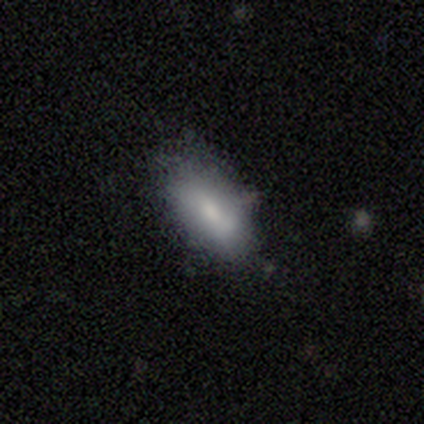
This is likely a smooth galaxy (78%). How rounded: clearly in between (90%). Merging: likely none (65%).